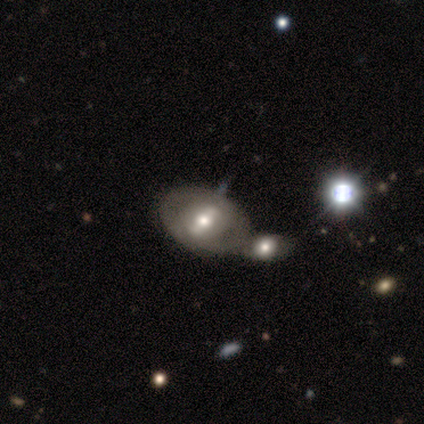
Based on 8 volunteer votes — Morphology: type=featured or disk (75%); edge-on=no (100%); bar=strong (50%); spiral arms=yes (67%); winding=tight (75%); arm count=2 (75%); bulge=moderate (67%); merging=merger (57%).